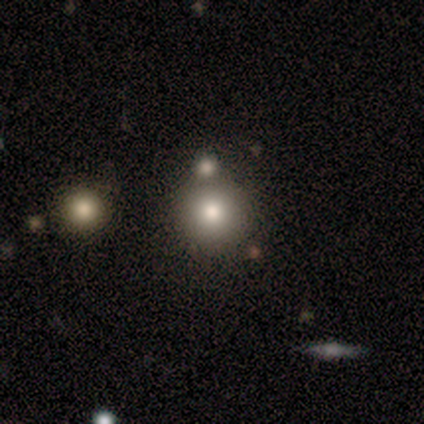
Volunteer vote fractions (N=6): Smooth or featured: smooth — 67% (featured or disk — 17%)
How rounded: round — 100%
Merging: merger — 60% (none — 40%)